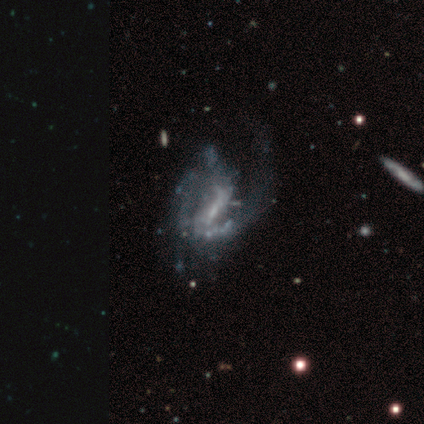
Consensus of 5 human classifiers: Overall: featured or disk (100%). Edge-on disk: no (100%). Bar: weak (60%; strong 20%). Spiral arms: no (60%; yes 40%). Bulge size: small (40%, tied with none). Merging: major disturbance (100%).